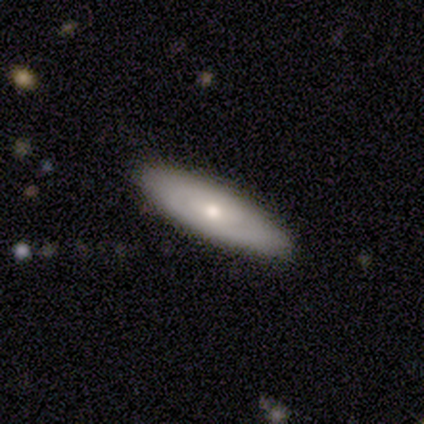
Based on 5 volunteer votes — This appears to be a smooth galaxy with no disk features (60%) that is cigar-shaped (67%). Merging: none (60%).